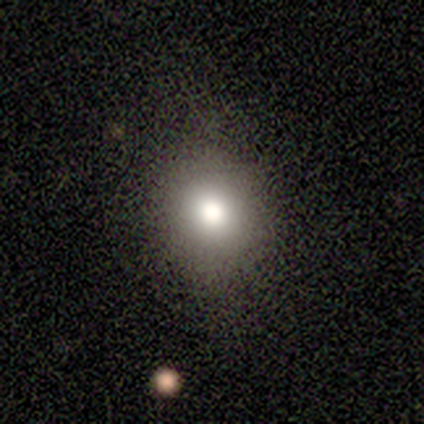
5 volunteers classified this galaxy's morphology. This is clearly a smooth galaxy (80%). How rounded: likely in between (75%). Merging: clearly none (80%).